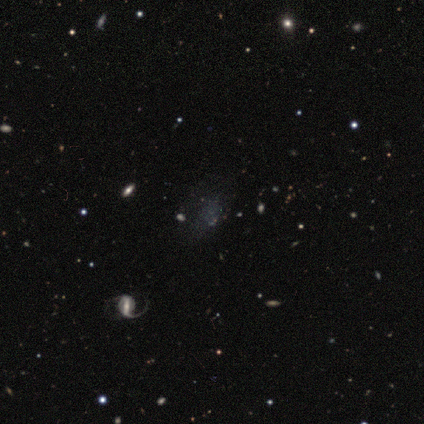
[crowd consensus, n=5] Smooth or featured? featured or disk (40%, tied with star or artifact)
Edge-on disk? no (100%)
Bar? strong (50%, tied with weak)
Spiral arms? yes (100%)
Spiral winding? medium (50%, tied with loose)
Spiral arm count? 1 (100%)
Bulge size? moderate (50%, tied with small)
Merging? minor disturbance (67%)